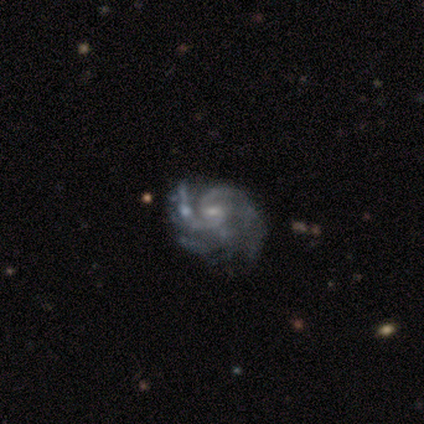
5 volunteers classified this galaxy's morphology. A featured or disk galaxy (80%) with a weak bar (100%), 2 (50%) tight (50%, tied with medium) spiral arms (100%) and a moderate central bulge (75%). Merging: none (60%).